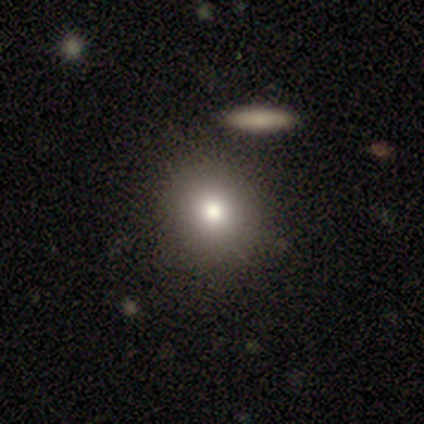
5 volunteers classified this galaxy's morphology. smooth_or_featured: smooth (p=0.60) [alt: featured or disk p=0.40]
how_rounded: round (p=0.67) [alt: in between p=0.33]
merging: none (p=1.00)